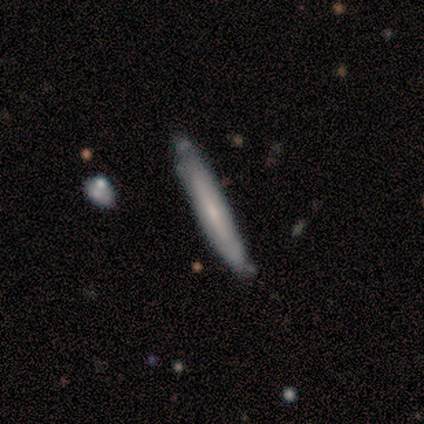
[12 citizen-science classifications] smooth 50% (tied), featured or disk 50% (tied), star or artifact 0%. Down the decision tree: how rounded — cigar-shaped (100%); merging — none (75%).